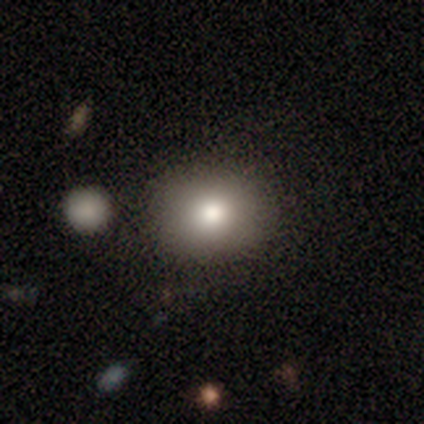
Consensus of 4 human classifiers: Smooth or featured? smooth (100%)
How rounded? round (50%, tied with in between)
Merging? none (100%)